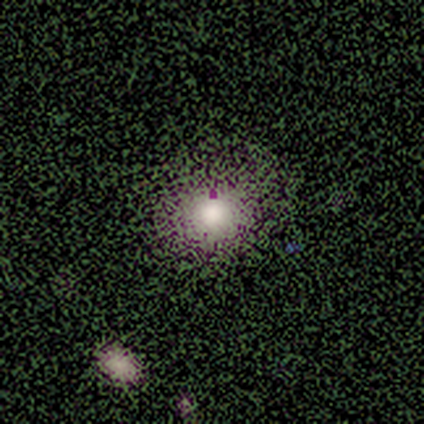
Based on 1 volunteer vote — featured or disk 100%, smooth 0%, star or artifact 0%. Down the decision tree: edge-on disk — no (100%); bar — no (100%); spiral arms — no (100%); bulge size — large (100%); merging — none (100%).